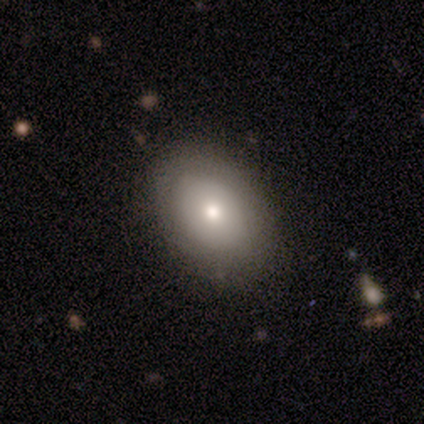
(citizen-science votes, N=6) Overall: smooth (50%; featured or disk 33%). How rounded: in between (67%; round 33%). Merging: none (100%).